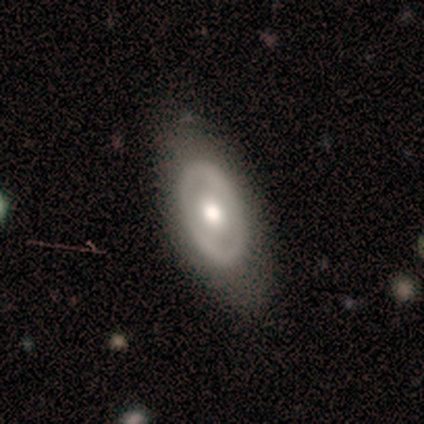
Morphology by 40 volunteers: Q: Smooth or featured?
A: featured or disk (68%); runner-up: smooth (25%)
Q: Edge-on disk?
A: no (85%); runner-up: yes (15%)
Q: Bar?
A: no (70%); runner-up: weak (26%)
Q: Spiral arms?
A: no (83%); runner-up: yes (17%)
Q: Bulge size?
A: moderate (65%); runner-up: large (17%)
Q: Merging?
A: none (84%); runner-up: minor disturbance (11%)